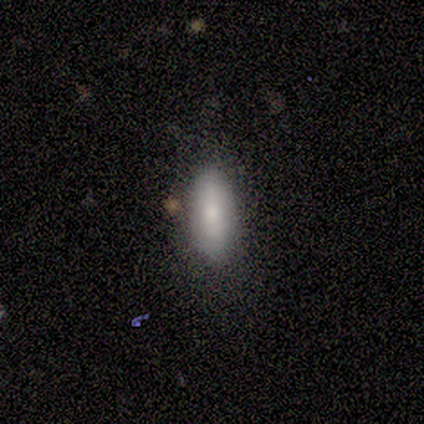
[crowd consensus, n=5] smooth_or_featured: smooth (p=1.00)
how_rounded: in between (p=0.80) [alt: cigar-shaped p=0.20]
merging: none (p=1.00)